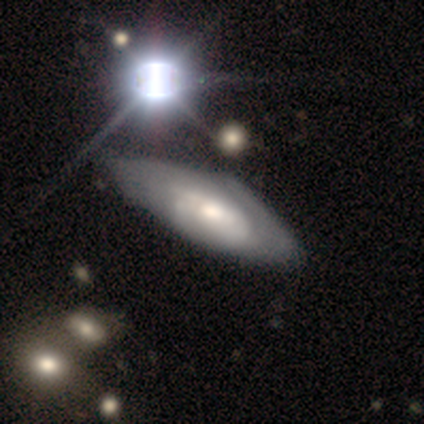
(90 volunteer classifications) smooth_or_featured: featured or disk (p=0.69) [alt: smooth p=0.24]
disk_edge_on: no (p=0.94) [alt: yes p=0.06]
bar: no (p=0.78) [alt: weak p=0.22]
has_spiral_arms: yes (p=0.62) [alt: no p=0.38]
spiral_winding: tight (p=0.67) [alt: medium p=0.28]
spiral_arm_count: can't tell (p=0.61) [alt: 2 p=0.25]
bulge_size: moderate (p=0.50) [alt: small p=0.22]
merging: none (p=0.48) [alt: minor disturbance p=0.40]